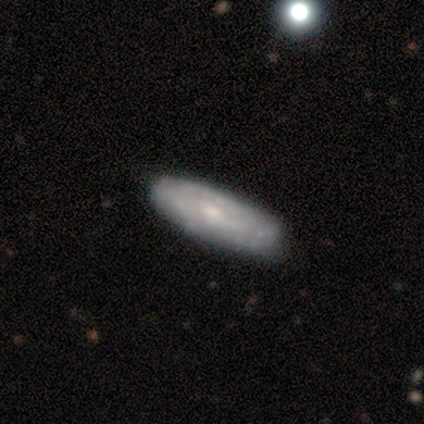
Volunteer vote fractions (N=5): Smooth or featured? 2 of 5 (40%, tied with featured or disk) said smooth. How rounded? 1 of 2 (50%, tied with in between) said round. Merging? 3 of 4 (75%) said none.